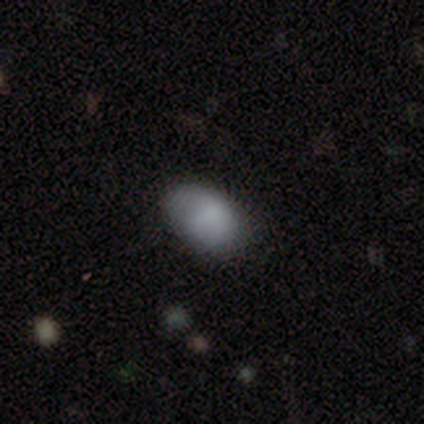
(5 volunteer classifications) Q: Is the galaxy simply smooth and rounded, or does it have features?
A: smooth — 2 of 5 (40%, tied with featured or disk).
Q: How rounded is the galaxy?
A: round — 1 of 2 (50%, tied with in between).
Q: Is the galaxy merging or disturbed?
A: none — 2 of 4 (50%).